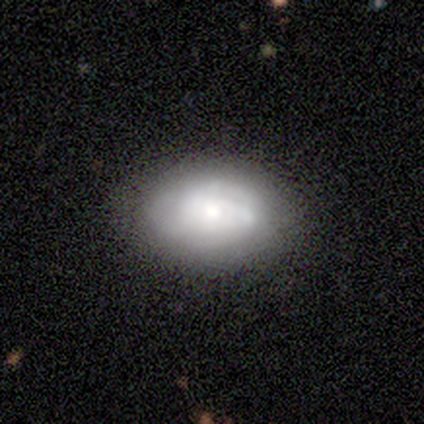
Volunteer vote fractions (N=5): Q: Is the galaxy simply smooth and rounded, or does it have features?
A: featured or disk — 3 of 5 (60%).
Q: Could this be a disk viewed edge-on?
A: no — 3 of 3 (100%).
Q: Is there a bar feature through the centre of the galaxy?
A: no — 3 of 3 (100%).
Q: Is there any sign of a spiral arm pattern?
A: yes — 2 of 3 (67%).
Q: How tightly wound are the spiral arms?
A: medium — 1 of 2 (50%, tied with loose).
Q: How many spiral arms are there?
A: can't tell — 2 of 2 (100%).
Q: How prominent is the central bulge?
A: small — 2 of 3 (67%).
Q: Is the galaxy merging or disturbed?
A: minor disturbance — 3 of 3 (100%).